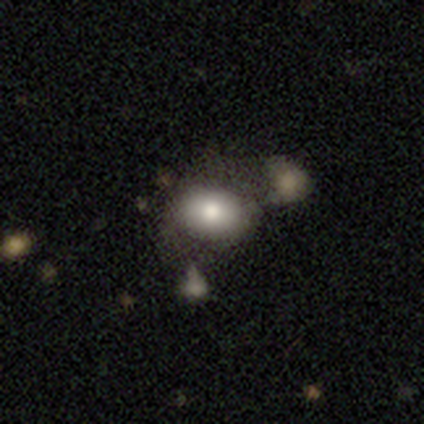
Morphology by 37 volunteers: Volunteers were most divided on "merging": none: 44%, merger: 28%, major disturbance: 19%, minor disturbance: 9%. More confident: how rounded — in between (82%); smooth or featured — smooth (76%).